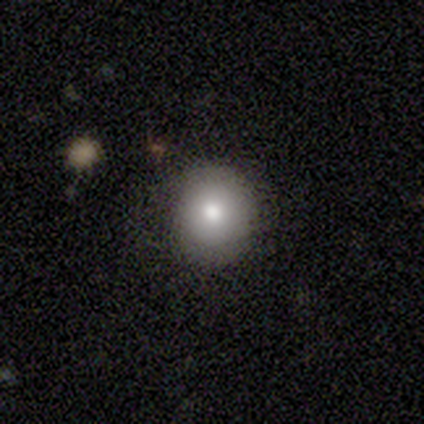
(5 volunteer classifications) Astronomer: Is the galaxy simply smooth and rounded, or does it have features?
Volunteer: smooth — 80%.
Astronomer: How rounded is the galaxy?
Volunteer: round — 50%, tied with in between at 50%.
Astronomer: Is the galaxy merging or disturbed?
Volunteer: none — 60% (runner-up: minor disturbance, 40%).